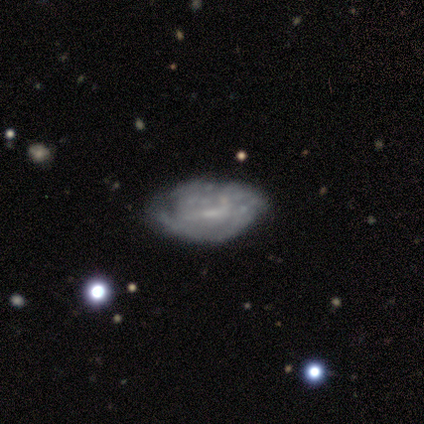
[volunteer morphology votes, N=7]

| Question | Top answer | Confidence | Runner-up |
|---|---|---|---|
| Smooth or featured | featured or disk | 71% | smooth (29%) |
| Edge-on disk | no | 100% | — |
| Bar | no | 60% | weak (40%) |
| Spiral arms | no | 60% | yes (40%) |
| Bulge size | none | 80% | small (20%) |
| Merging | none | 57% | minor disturbance (29%) |